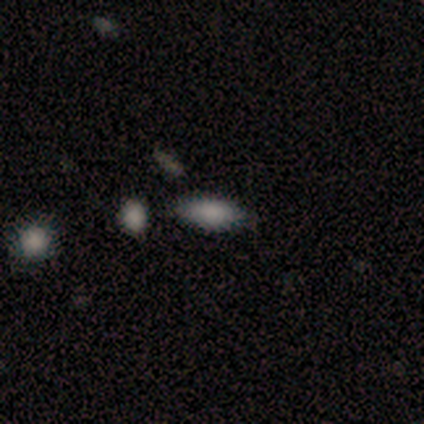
smooth_or_featured: smooth (p=0.80) [alt: featured or disk p=0.20]
how_rounded: in between (p=1.00)
merging: none (p=0.80) [alt: minor disturbance p=0.20]